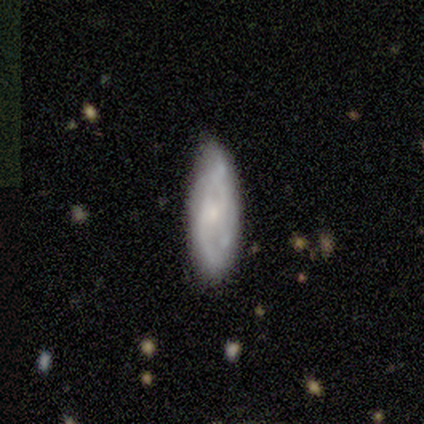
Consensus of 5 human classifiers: Smooth or featured? 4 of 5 (80%) said featured or disk. Edge-on disk? 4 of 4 (100%) said no. Bar? 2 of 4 (50%) said weak. Spiral arms? 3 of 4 (75%) said yes. Spiral winding? 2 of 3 (67%) said tight. Spiral arm count? 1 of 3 (33%, tied with 3 and can't tell) said 2. Bulge size? 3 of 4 (75%) said small. Merging? 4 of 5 (80%) said none.